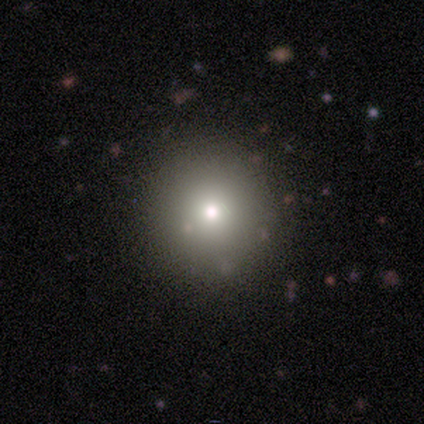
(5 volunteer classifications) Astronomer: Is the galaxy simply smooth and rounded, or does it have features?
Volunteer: smooth — 60%.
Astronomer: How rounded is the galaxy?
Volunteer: round — 100%.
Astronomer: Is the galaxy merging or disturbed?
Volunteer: none — 100%.